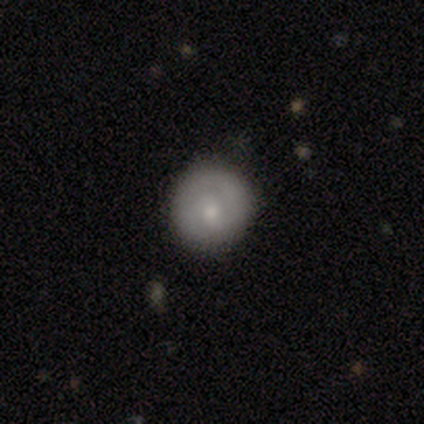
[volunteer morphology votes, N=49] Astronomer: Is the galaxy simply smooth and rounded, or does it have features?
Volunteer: smooth — 61%.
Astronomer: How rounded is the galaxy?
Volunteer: round — 90%.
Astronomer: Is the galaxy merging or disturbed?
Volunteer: none — 82%.